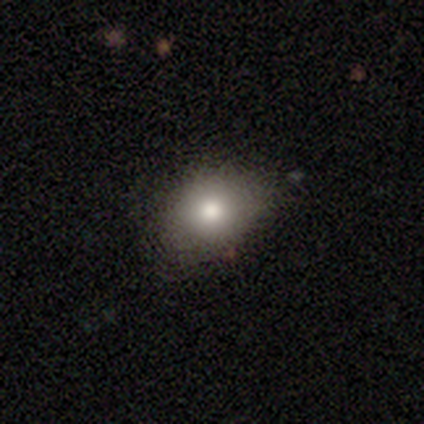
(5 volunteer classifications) Overall: smooth (100%). How rounded: round (60%; in between 40%). Merging: none (60%; minor disturbance 40%).